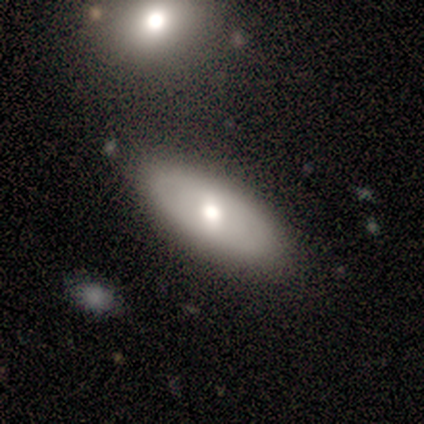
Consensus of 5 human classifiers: smooth 60%, featured or disk 40%, star or artifact 0%. Down the decision tree: how rounded — in between (100%); merging — none (100%).